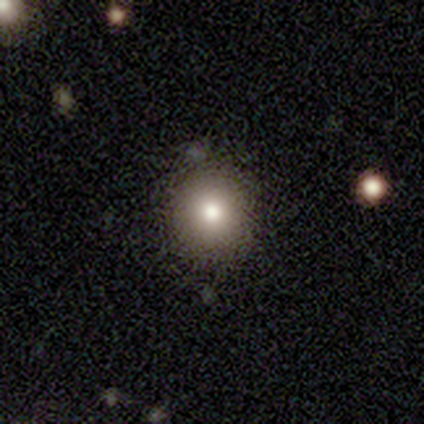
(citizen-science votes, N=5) A smooth galaxy with no disk features (100%) that is round (100%).

Vote fractions:
- Smooth or featured? smooth: 100% / featured or disk: 0% / star or artifact: 0%
- How rounded? round: 100% / in between: 0% / cigar-shaped: 0%
- Merging? none: 100% / minor disturbance: 0% / major disturbance: 0% / merger: 0%